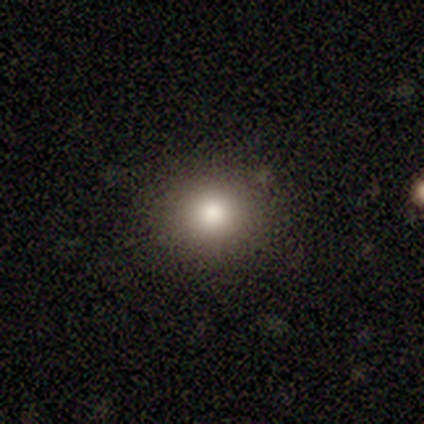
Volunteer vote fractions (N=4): Morphology: type=smooth (75%); roundness=round (100%); merging=none (67%).